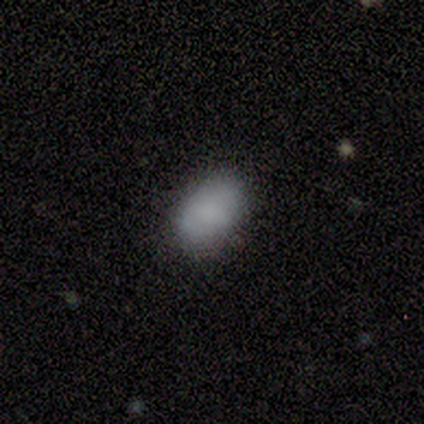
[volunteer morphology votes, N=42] smooth_or_featured: smooth (p=0.79) [alt: star or artifact p=0.14]
how_rounded: in between (p=0.91) [alt: round p=0.09]
merging: none (p=0.78) [alt: minor disturbance p=0.19]